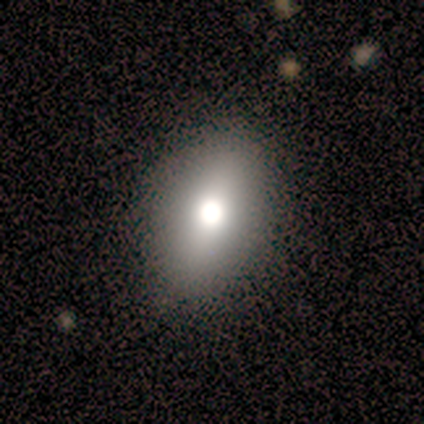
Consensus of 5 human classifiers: Smooth or featured?
  - smooth: 60% *
  - star or artifact: 40%
  - featured or disk: 0%
How rounded?
  - in between: 67% *
  - round: 33%
  - cigar-shaped: 0%
Merging?
  - none: 67% *
  - minor disturbance: 33%
  - major disturbance: 0%
  - merger: 0%